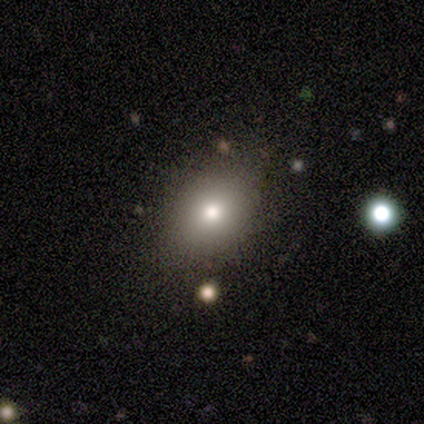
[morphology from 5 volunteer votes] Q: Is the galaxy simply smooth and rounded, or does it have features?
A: smooth — 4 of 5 (80%).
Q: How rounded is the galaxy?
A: round — 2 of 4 (50%, tied with in between).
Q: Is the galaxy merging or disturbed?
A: none — 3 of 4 (75%).